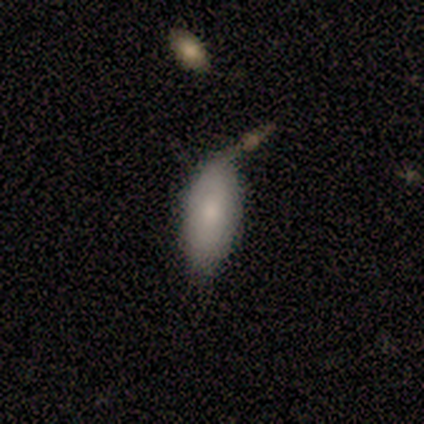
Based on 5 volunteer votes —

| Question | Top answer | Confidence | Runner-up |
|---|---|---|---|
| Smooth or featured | smooth | 60% | featured or disk (20%) |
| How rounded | in between | 100% | — |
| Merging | major disturbance | 50% | none (25%) |